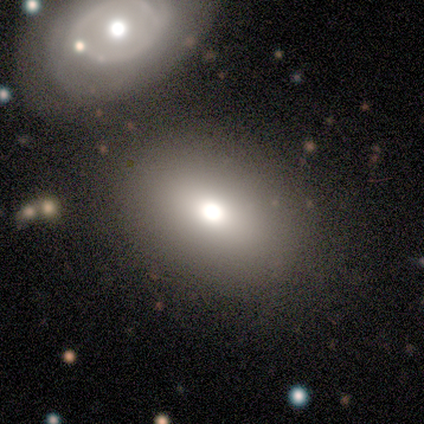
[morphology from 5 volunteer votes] type=smooth (80%); roundness=in between (75%); merging=none (75%).